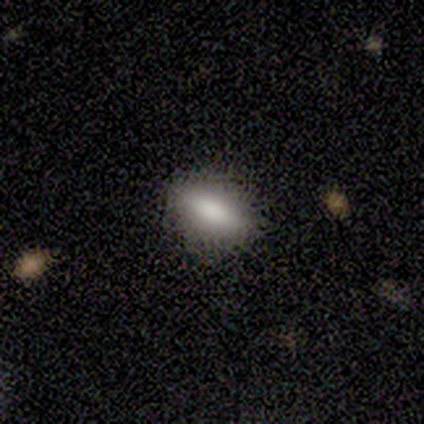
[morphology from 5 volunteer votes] Smooth or featured? star or artifact (60%)